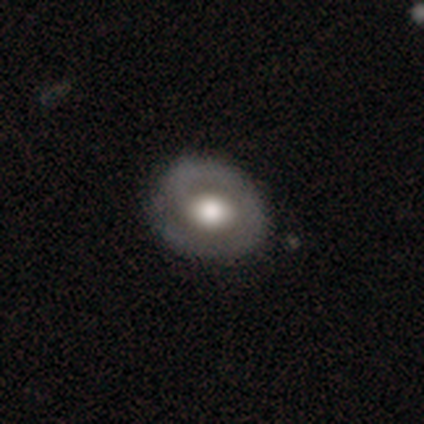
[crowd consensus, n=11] Smooth or featured?
  - featured or disk: 64% *
  - smooth: 36%
  - star or artifact: 0%
Edge-on disk?
  - no: 100% *
  - yes: 0%
Bar?
  - no: 71% *
  - weak: 29%
  - strong: 0%
Spiral arms?
  - no: 57% *
  - yes: 43%
Bulge size?
  - moderate: 71% *
  - large: 29%
  - dominant: 0%
  - small: 0%
  - none: 0%
Merging?
  - none: 82% *
  - minor disturbance: 9%
  - major disturbance: 9%
  - merger: 0%